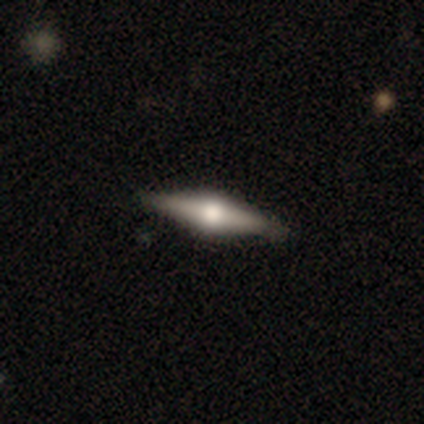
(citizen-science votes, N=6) smooth-or-featured: featured or disk: 83% | smooth: 17% | star or artifact: 0%
  disk-edge-on: yes: 100% | no: 0%
    edge-on-bulge: rounded: 100% | boxy: 0% | none: 0%
  merging: none: 100% | minor disturbance: 0% | major disturbance: 0% | merger: 0%